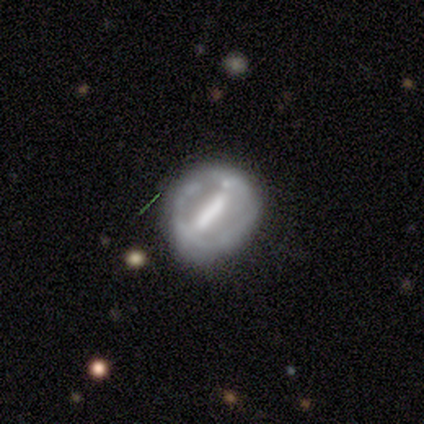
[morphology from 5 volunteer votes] Smooth or featured: featured or disk — 100%
Edge-on disk: no — 100%
Bar: strong — 80% (weak — 20%)
Spiral arms: no — 100%
Bulge size: small — 40% (tied with none — 40%)
Merging: none — 60% (minor disturbance — 40%)